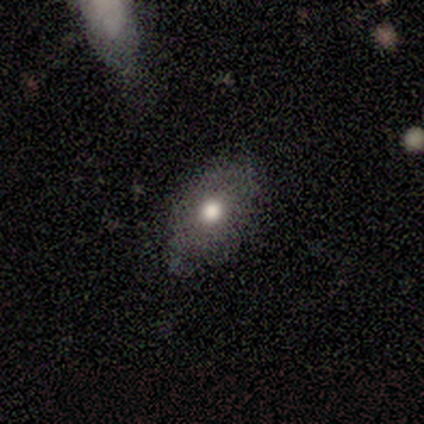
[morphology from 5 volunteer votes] smooth-or-featured: smooth: 80% | featured or disk: 20% | star or artifact: 0%
  how-rounded: in between: 100% | round: 0% | cigar-shaped: 0%
  merging: none: 80% | minor disturbance: 20% | major disturbance: 0% | merger: 0%